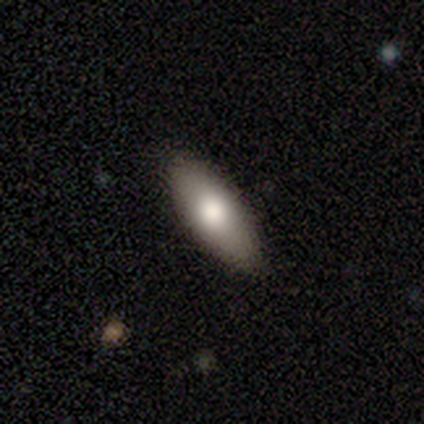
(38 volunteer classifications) Smooth or featured? smooth (82%)
How rounded? in between (81%)
Merging? none (88%)